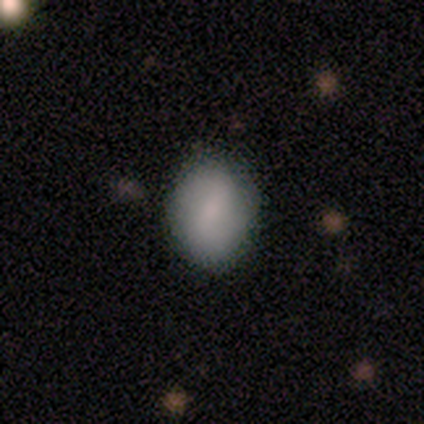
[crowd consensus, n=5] Smooth or featured: smooth — 100%
How rounded: in between — 100%
Merging: none — 60% (minor disturbance — 40%)